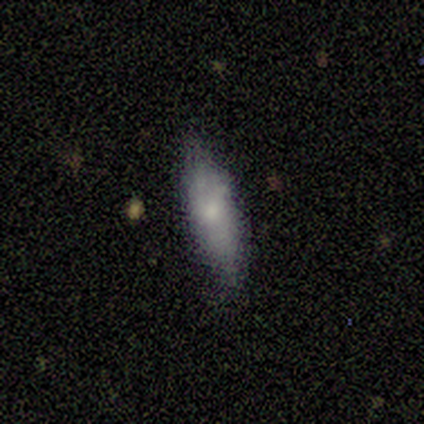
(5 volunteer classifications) smooth-or-featured: smooth: 80% | featured or disk: 20% | star or artifact: 0%
  how-rounded: cigar-shaped: 75% | in between: 25% | round: 0%
  merging: none: 60% | minor disturbance: 40% | major disturbance: 0% | merger: 0%